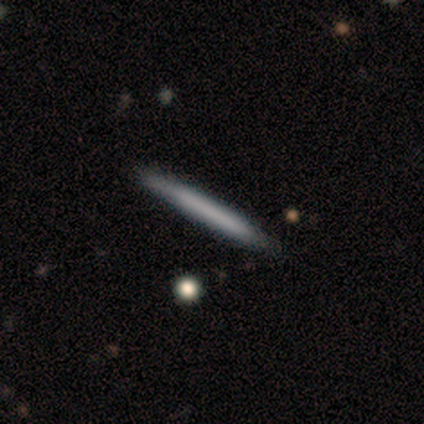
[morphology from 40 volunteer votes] Smooth or featured: smooth — 52% (featured or disk — 42%)
How rounded: cigar-shaped — 95% (round — 5%)
Merging: none — 89% (minor disturbance — 8%)